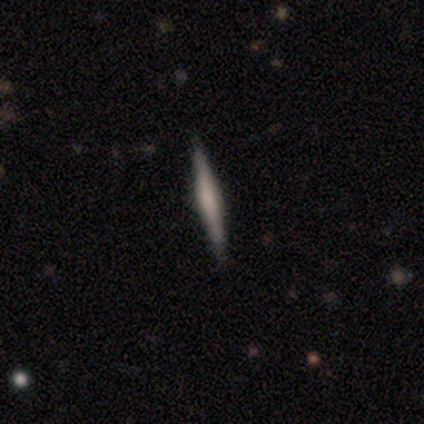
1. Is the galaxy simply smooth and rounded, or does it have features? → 80% featured or disk, 20% smooth, 0% star or artifact.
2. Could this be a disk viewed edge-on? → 100% yes, 0% no.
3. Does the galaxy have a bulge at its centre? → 50% boxy, 25% none, 25% rounded.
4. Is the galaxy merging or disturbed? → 100% none, 0% minor disturbance, 0% major disturbance, 0% merger.